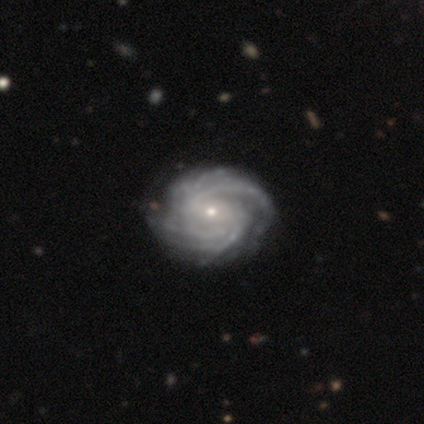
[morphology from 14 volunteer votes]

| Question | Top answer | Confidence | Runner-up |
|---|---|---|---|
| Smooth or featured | featured or disk | 100% | — |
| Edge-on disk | no | 100% | — |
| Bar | no | 57% | weak (36%) |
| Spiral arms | yes | 100% | — |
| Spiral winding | tight | 86% | medium (7%) |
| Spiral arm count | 4 | 43% | 3 (29%) |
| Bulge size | small | 100% | — |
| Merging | none | 93% | minor disturbance (7%) |